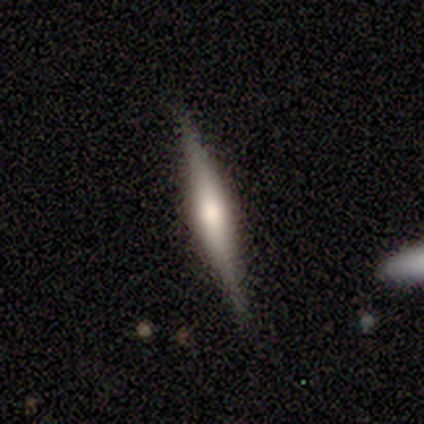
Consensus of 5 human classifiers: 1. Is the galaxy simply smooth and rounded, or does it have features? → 100% featured or disk, 0% smooth, 0% star or artifact.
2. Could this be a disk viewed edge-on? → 80% yes, 20% no.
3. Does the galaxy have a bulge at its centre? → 75% rounded, 25% none, 0% boxy.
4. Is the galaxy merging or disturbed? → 100% none, 0% minor disturbance, 0% major disturbance, 0% merger.